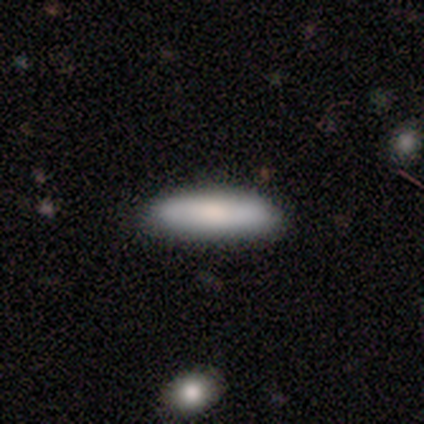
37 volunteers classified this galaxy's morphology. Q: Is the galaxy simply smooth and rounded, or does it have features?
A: smooth — 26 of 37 (70%).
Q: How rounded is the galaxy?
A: cigar-shaped — 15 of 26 (58%).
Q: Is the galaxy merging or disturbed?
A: none — 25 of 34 (74%).